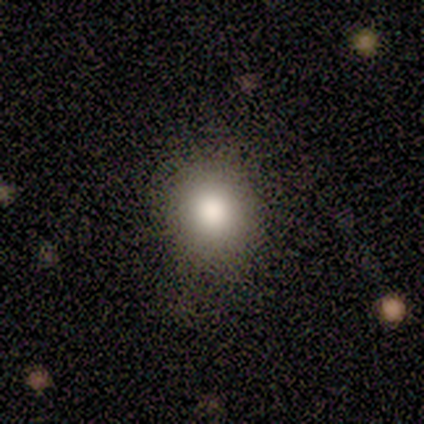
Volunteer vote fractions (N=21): Overall: smooth (90%). How rounded: round (74%). Merging: none (85%).